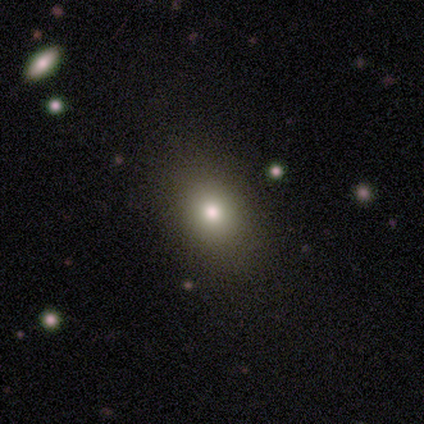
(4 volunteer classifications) Overall: smooth (100%). How rounded: round (50%, tied with in between). Merging: none (100%).